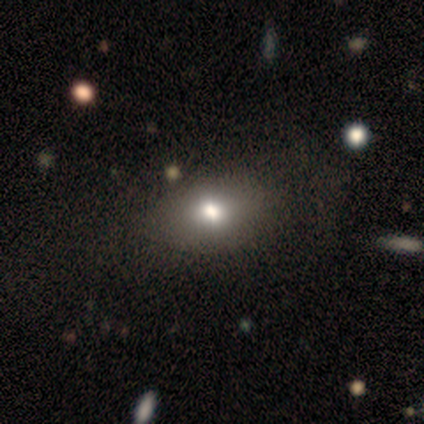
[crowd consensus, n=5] Smooth or featured: smooth — 80% (featured or disk — 20%)
How rounded: in between — 75% (round — 25%)
Merging: none — 60% (minor disturbance — 40%)